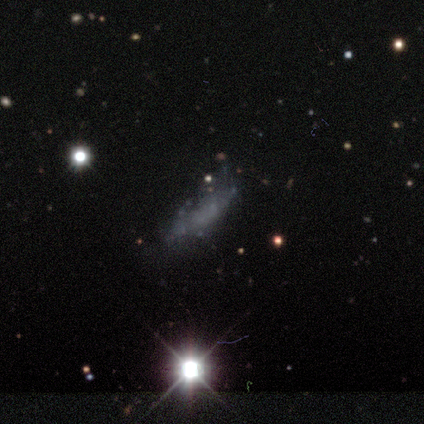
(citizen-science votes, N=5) Smooth or featured? 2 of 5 (40%, tied with star or artifact) said featured or disk. Edge-on disk? 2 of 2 (100%) said no. Bar? 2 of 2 (100%) said no. Spiral arms? 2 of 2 (100%) said no. Bulge size? 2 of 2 (100%) said none. Merging? 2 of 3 (67%) said none.